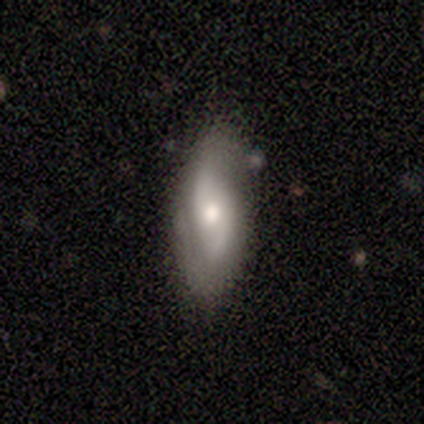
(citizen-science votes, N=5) Q: Smooth or featured?
A: featured or disk (60%); runner-up: smooth (40%)
Q: Edge-on disk?
A: no (100%)
Q: Bar?
A: no (100%)
Q: Spiral arms?
A: no (67%); runner-up: yes (33%)
Q: Bulge size?
A: moderate (67%); runner-up: small (33%)
Q: Merging?
A: none (80%); runner-up: minor disturbance (20%)